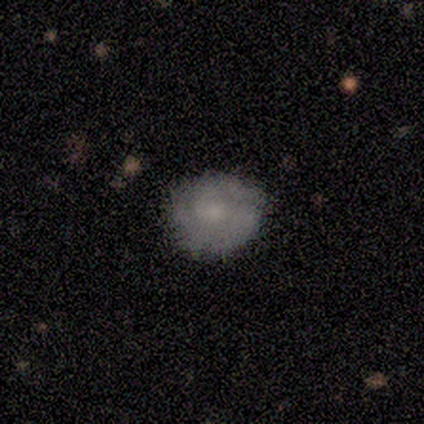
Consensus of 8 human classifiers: Volunteers were most divided on "how rounded" (2-way tie): round: 50%, in between: 50%, cigar-shaped: 0%. More confident: merging — none (100%); smooth or featured — smooth (50%).